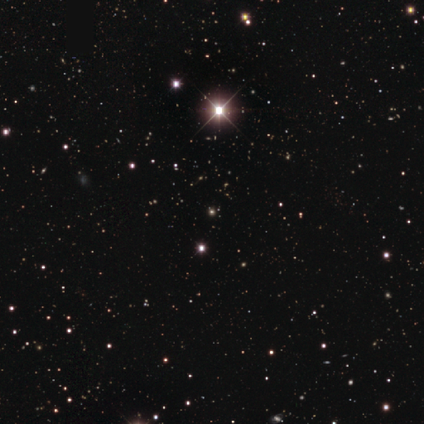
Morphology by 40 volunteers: A star or artifact, not a galaxy (78%).

Vote fractions:
- Smooth or featured? star or artifact: 78% / smooth: 20% / featured or disk: 2%